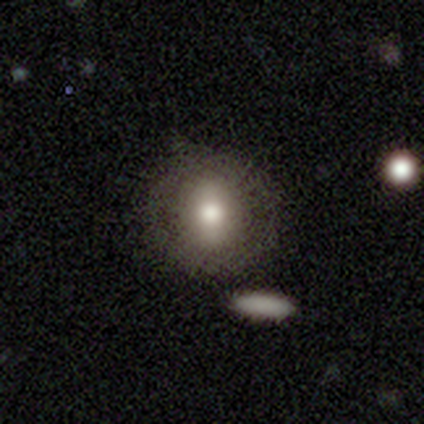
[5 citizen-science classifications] Q: Smooth or featured?
A: smooth (80%); runner-up: star or artifact (20%)
Q: How rounded?
A: round (75%); runner-up: in between (25%)
Q: Merging?
A: none (50%); tied with: minor disturbance (50%)